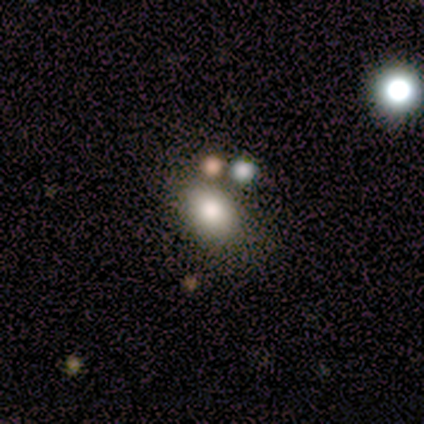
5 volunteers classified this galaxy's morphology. smooth_or_featured: smooth (p=0.60) [alt: featured or disk p=0.20]
how_rounded: in between (p=1.00)
merging: none (p=0.75) [alt: merger p=0.25]